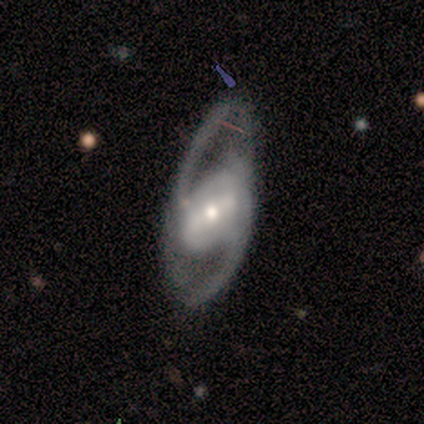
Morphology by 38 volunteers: Q: Smooth or featured?
A: featured or disk (89%); runner-up: smooth (8%)
Q: Edge-on disk?
A: no (88%); runner-up: yes (12%)
Q: Bar?
A: strong (50%); runner-up: weak (40%)
Q: Spiral arms?
A: yes (83%); runner-up: no (17%)
Q: Spiral winding?
A: loose (52%); runner-up: medium (40%)
Q: Spiral arm count?
A: 2 (96%); runner-up: can't tell (4%)
Q: Bulge size?
A: moderate (60%); runner-up: small (30%)
Q: Merging?
A: none (57%); runner-up: minor disturbance (22%)